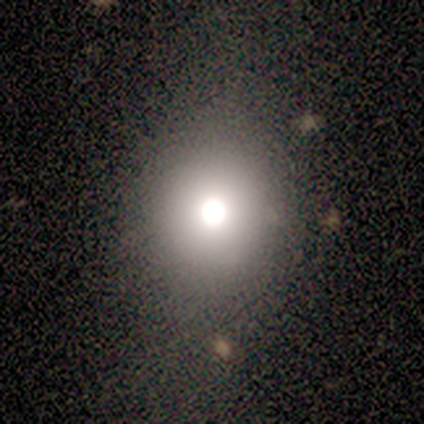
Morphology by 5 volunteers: Q: Smooth or featured?
A: star or artifact (60%); runner-up: smooth (40%)